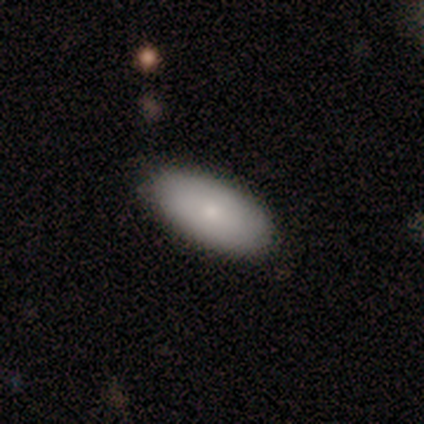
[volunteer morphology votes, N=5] smooth 60%, featured or disk 40%, star or artifact 0%. Down the decision tree: how rounded — in between (100%); merging — none (80%).